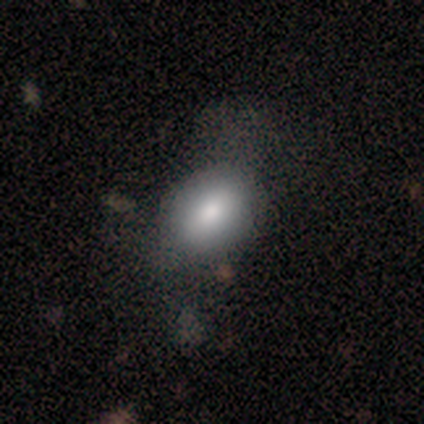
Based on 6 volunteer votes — smooth 83%, star or artifact 17%, featured or disk 0%. Down the decision tree: how rounded — in between (60%); merging — none (80%).